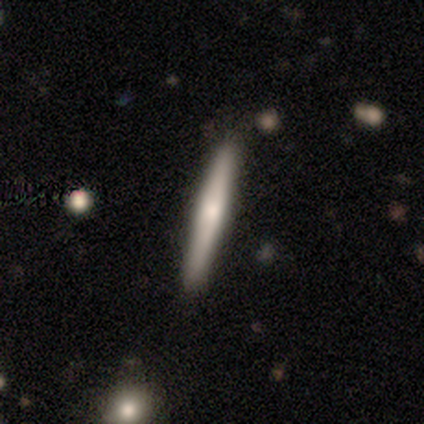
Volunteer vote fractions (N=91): Smooth or featured? 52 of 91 (57%) said smooth. How rounded? 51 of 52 (98%) said cigar-shaped. Merging? 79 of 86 (92%) said none.